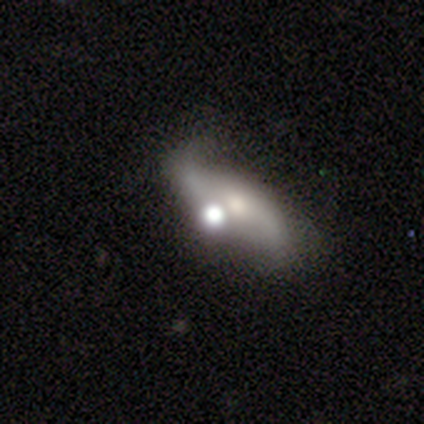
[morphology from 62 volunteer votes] Smooth or featured?
  - featured or disk: 56% *
  - smooth: 24%
  - star or artifact: 19%
Edge-on disk?
  - no: 89% *
  - yes: 11%
Bar?
  - no: 55% *
  - weak: 26%
  - strong: 19%
Spiral arms?
  - yes: 90% *
  - no: 10%
Spiral winding?
  - loose: 71% *
  - medium: 21%
  - tight: 7%
Spiral arm count?
  - 2: 100% *
  - 1: 0%
  - 3: 0%
  - 4: 0%
  - more than 4: 0%
  - can't tell: 0%
Bulge size?
  - moderate: 45% *
  - small: 29%
  - large: 26%
  - dominant: 0%
  - none: 0%
Merging?
  - none: 36% *
  - merger: 34%
  - minor disturbance: 22%
  - major disturbance: 8%